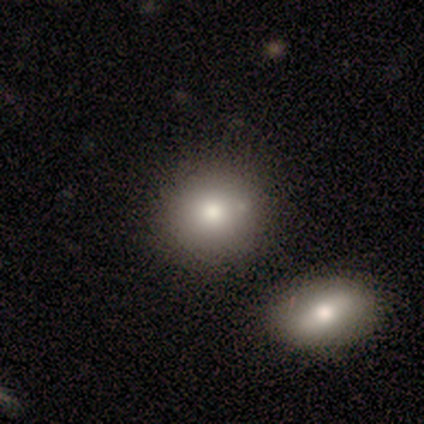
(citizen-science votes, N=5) Smooth or featured: smooth — 80% (star or artifact — 20%)
How rounded: round — 50% (tied with in between — 50%)
Merging: none — 50% (major disturbance — 25%)